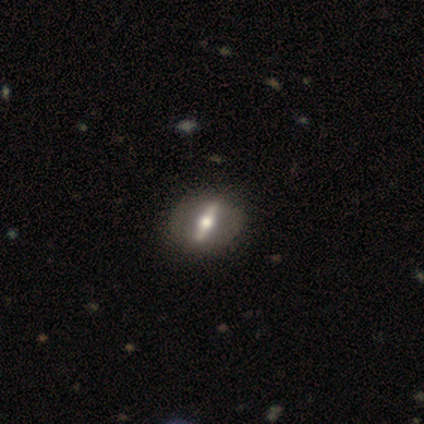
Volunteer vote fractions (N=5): A featured or disk galaxy (80%) viewed edge-on (50%, tied with no) with a rounded central bulge (100%). Merging: none (100%).